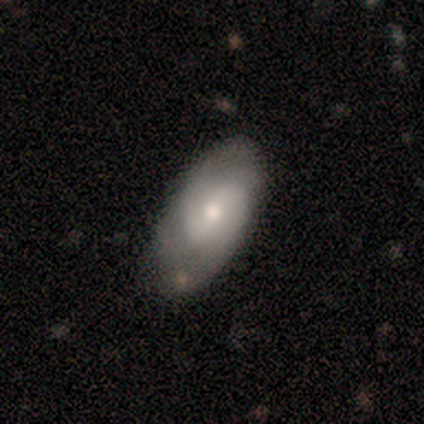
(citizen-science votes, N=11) A featured or disk galaxy (55%) with a weak bar (50%), 2 (100%) tight (80%) spiral arms (83%) and a moderate central bulge (67%).

Vote fractions:
- Smooth or featured? featured or disk: 55% / smooth: 45% / star or artifact: 0%
- Edge-on disk? no: 100% / yes: 0%
- Bar? weak: 50% / no: 33% / strong: 17%
- Spiral arms? yes: 83% / no: 17%
- Spiral winding? tight: 80% / medium: 20% / loose: 0%
- Spiral arm count? 2: 100% / 1: 0% / 3: 0% / 4: 0% / more than 4: 0% / can't tell: 0%
- Bulge size? moderate: 67% / small: 33% / dominant: 0% / large: 0% / none: 0%
- Merging? none: 55% / minor disturbance: 36% / merger: 9% / major disturbance: 0%